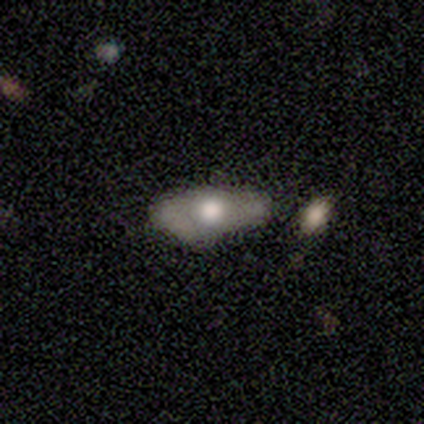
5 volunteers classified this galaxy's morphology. smooth_or_featured: featured or disk (p=0.60) [alt: smooth p=0.40]
disk_edge_on: no (p=1.00)
bar: no (p=1.00)
has_spiral_arms: no (p=1.00)
bulge_size: large (p=0.67) [alt: moderate p=0.33]
merging: minor disturbance (p=0.80) [alt: none p=0.20]